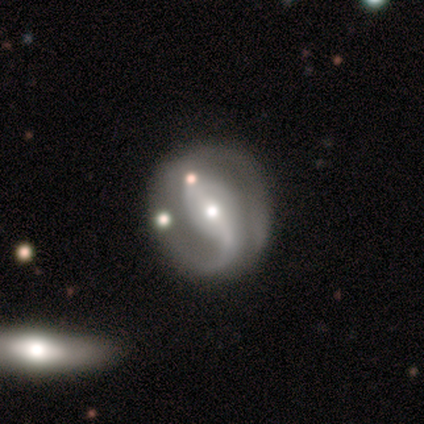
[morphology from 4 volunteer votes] smooth-or-featured: featured or disk: 100% | smooth: 0% | star or artifact: 0%
  disk-edge-on: no: 100% | yes: 0%
    bar: no: 50% | strong: 25% | weak: 25%
    has-spiral-arms: yes: 50% (tied) | no: 50% (tied)
      spiral-winding: tight: 100% | medium: 0% | loose: 0%
      spiral-arm-count: 1: 50% (tied) | 2: 50% (tied) | 3: 0% | 4: 0% | more than 4: 0% | can't tell: 0%
    bulge-size: moderate: 75% | small: 25% | dominant: 0% | large: 0% | none: 0%
  merging: none: 100% | minor disturbance: 0% | major disturbance: 0% | merger: 0%